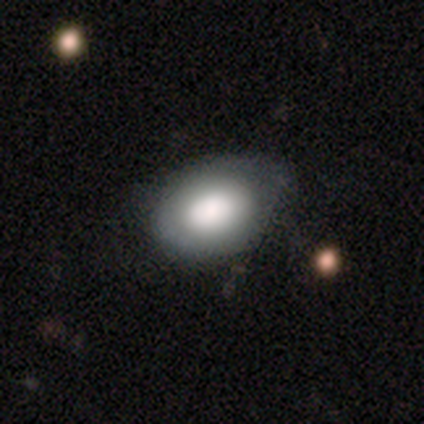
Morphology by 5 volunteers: A smooth galaxy with no disk features (80%) that is in between round and cigar-shaped (75%). Merging: none (80%).